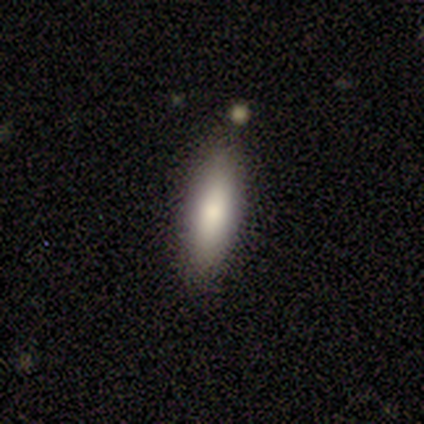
Morphology: type=smooth (90%); roundness=in between (78%); merging=none (100%).